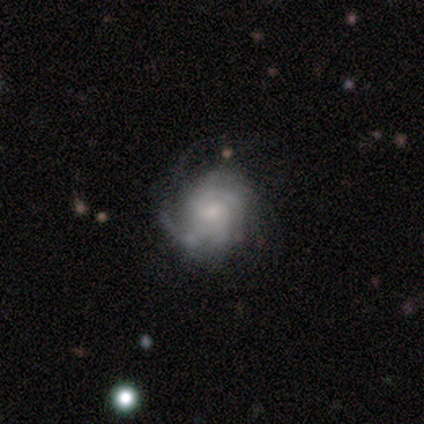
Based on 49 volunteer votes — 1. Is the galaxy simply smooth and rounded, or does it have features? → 88% featured or disk, 10% smooth, 2% star or artifact.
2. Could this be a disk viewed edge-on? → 98% no, 2% yes.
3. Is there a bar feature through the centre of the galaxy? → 79% no, 21% weak, 0% strong.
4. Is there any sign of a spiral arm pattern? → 98% yes, 2% no.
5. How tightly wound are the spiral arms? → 71% tight, 27% medium, 2% loose.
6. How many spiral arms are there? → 44% can't tell, 24% 3, 10% 1, 10% 2, 10% 4, 2% more than 4.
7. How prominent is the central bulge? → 55% small, 29% moderate, 12% none, 2% dominant, 2% large.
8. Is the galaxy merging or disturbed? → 65% none, 21% minor disturbance, 12% major disturbance, 2% merger.